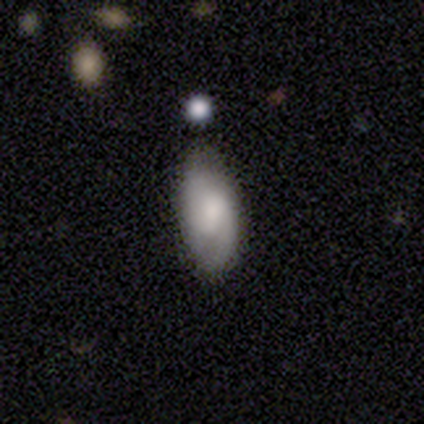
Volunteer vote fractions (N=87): This is possibly a smooth galaxy (55%). How rounded: clearly in between (90%). Merging: likely none (79%).